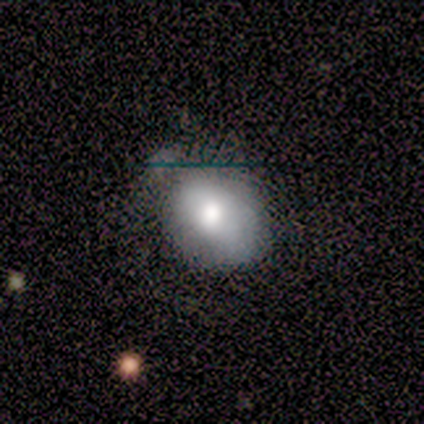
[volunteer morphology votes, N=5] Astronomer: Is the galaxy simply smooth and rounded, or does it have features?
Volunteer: smooth — 80%.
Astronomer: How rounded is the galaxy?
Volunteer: in between — 75%.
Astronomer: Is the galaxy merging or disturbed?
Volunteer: none — 60%.